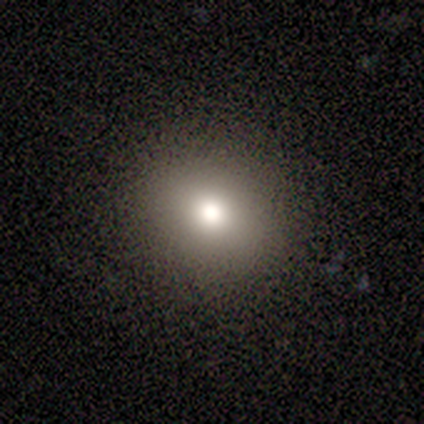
A smooth galaxy with no disk features (60%) that is round (67%).

Vote fractions:
- Smooth or featured? smooth: 60% / star or artifact: 40% / featured or disk: 0%
- How rounded? round: 67% / in between: 33% / cigar-shaped: 0%
- Merging? none: 100% / minor disturbance: 0% / major disturbance: 0% / merger: 0%